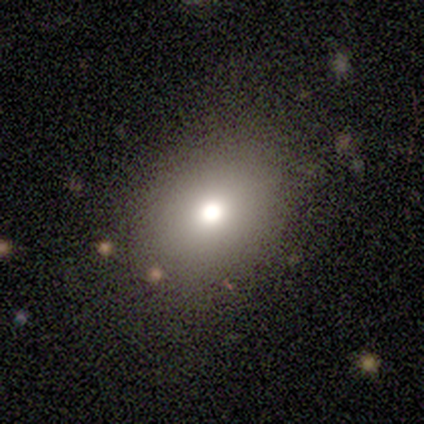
Smooth or featured: smooth — 80% (featured or disk — 20%)
How rounded: in between — 75% (round — 25%)
Merging: none — 60% (minor disturbance — 40%)